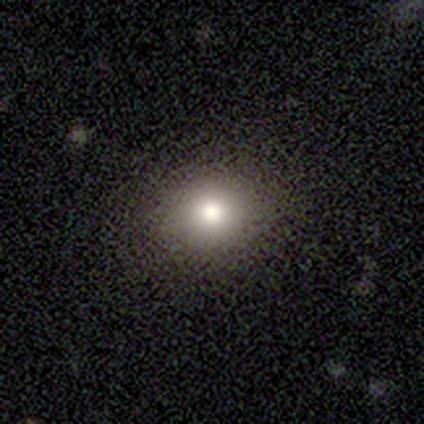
Smooth or featured? smooth (80%)
How rounded? round (100%)
Merging? none (100%)